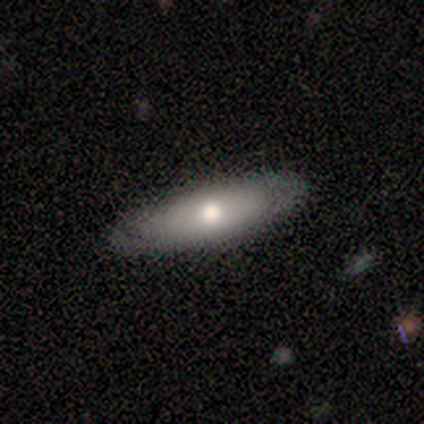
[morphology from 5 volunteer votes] This is likely a smooth galaxy (60%). How rounded: likely cigar-shaped (67%). Merging: likely none (60%).